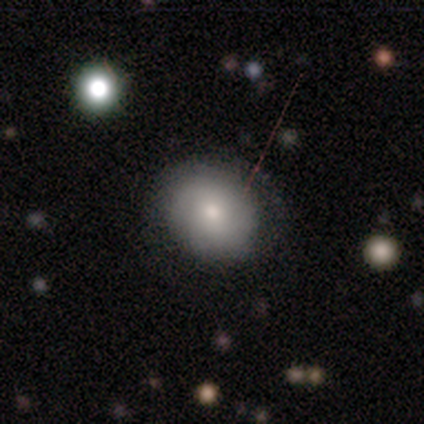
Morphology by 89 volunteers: smooth_or_featured: smooth (p=0.80) [alt: featured or disk p=0.17]
how_rounded: round (p=0.69) [alt: in between p=0.31]
merging: none (p=0.73) [alt: minor disturbance p=0.15]